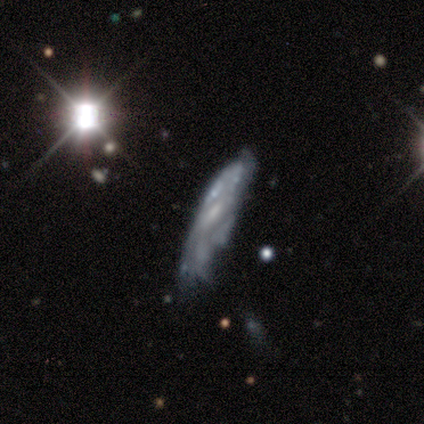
Morphology: type=featured or disk (80%); edge-on=no (59%); bar=weak (47%); spiral arms=no (58%); bulge=small (37%); merging=minor disturbance (38%).